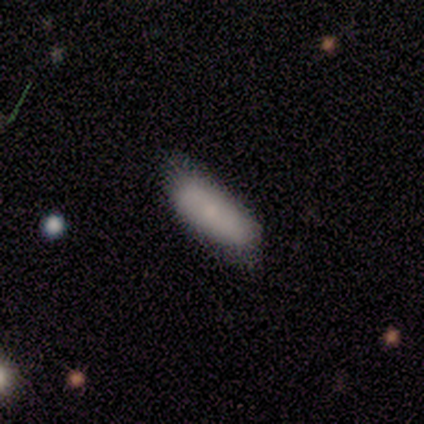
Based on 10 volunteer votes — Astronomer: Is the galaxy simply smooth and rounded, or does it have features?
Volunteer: smooth — 90%.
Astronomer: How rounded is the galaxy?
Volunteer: in between — 67%.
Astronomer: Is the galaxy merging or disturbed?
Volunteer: none — 70%.